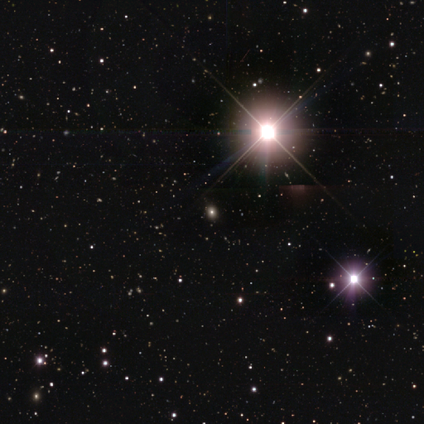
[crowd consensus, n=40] Smooth or featured? star or artifact (85%)